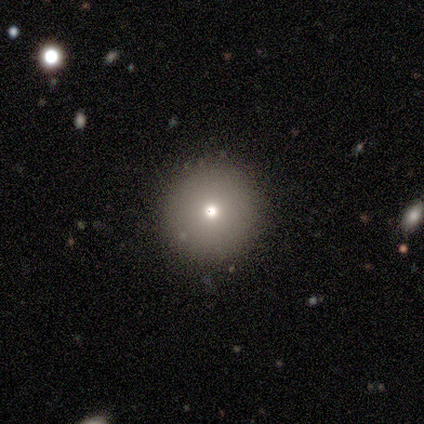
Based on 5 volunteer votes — A smooth galaxy with no disk features (100%) that is round (100%).

Vote fractions:
- Smooth or featured? smooth: 100% / featured or disk: 0% / star or artifact: 0%
- How rounded? round: 100% / in between: 0% / cigar-shaped: 0%
- Merging? none: 100% / minor disturbance: 0% / major disturbance: 0% / merger: 0%